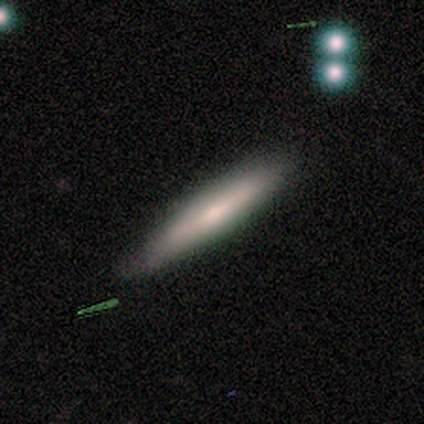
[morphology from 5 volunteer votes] Smooth or featured? smooth (80%)
How rounded? cigar-shaped (75%)
Merging? none (100%)